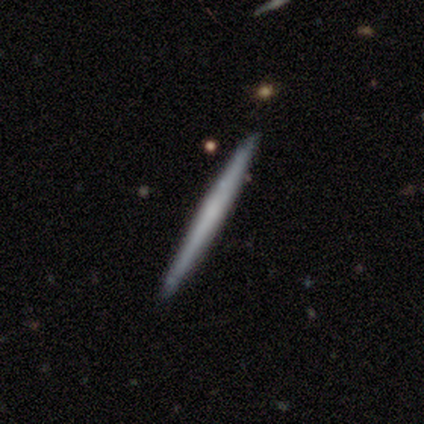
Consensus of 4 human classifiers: This appears to be a smooth galaxy with no disk features (50%, tied with featured or disk) that is cigar-shaped (100%). Merging: none (100%).